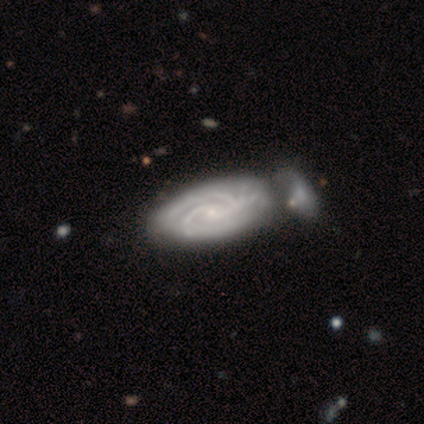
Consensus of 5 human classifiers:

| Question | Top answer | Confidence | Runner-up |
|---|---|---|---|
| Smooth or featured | featured or disk | 100% | — |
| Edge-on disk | no | 100% | — |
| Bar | no | 60% | weak (40%) |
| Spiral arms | yes | 100% | — |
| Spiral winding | tight | 100% | — |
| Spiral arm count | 2 | 60% | 3 (20%) |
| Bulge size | small | 100% | — |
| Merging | merger | 60% | none (20%) |